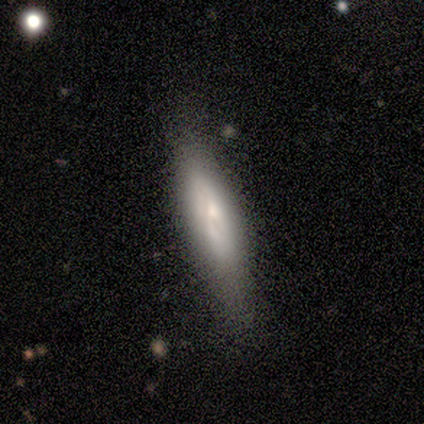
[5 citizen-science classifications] Overall: featured or disk (60%; smooth 40%). Edge-on disk: yes (100%). Edge-on bulge: boxy (33%, tied with none and rounded). Merging: none (60%; minor disturbance 40%).